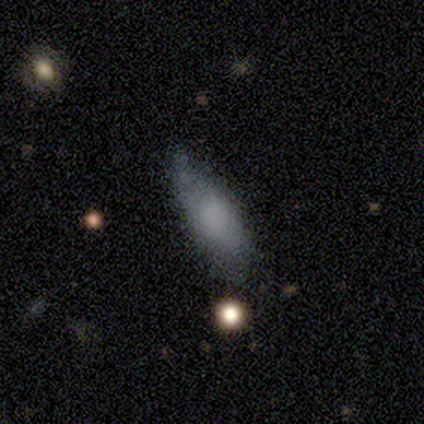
A smooth galaxy with no disk features (62%) that is in between round and cigar-shaped (80%). Merging: none (43%).